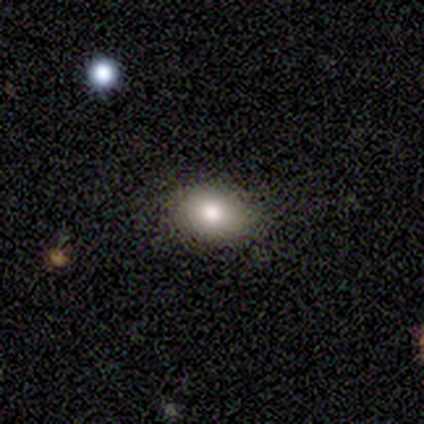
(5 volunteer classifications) Smooth or featured?
  - smooth: 60% *
  - featured or disk: 20%
  - star or artifact: 20%
How rounded?
  - in between: 100% *
  - round: 0%
  - cigar-shaped: 0%
Merging?
  - none: 100% *
  - minor disturbance: 0%
  - major disturbance: 0%
  - merger: 0%